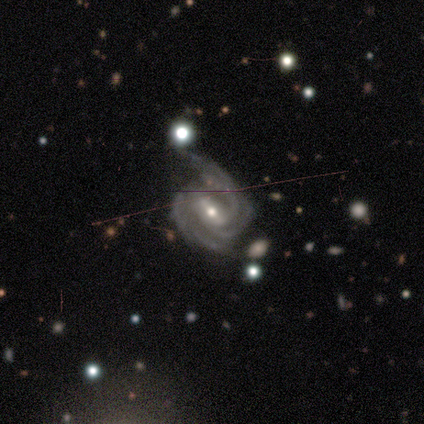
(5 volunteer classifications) A featured or disk galaxy (100%) with a weak bar (60%), 2 (80%) medium (80%) spiral arms (100%) and a small central bulge (80%).

Vote fractions:
- Smooth or featured? featured or disk: 100% / smooth: 0% / star or artifact: 0%
- Edge-on disk? no: 100% / yes: 0%
- Bar? weak: 60% / strong: 20% / no: 20%
- Spiral arms? yes: 100% / no: 0%
- Spiral winding? medium: 80% / tight: 20% / loose: 0%
- Spiral arm count? 2: 80% / 3: 20% / 1: 0% / 4: 0% / more than 4: 0% / can't tell: 0%
- Bulge size? small: 80% / moderate: 20% / dominant: 0% / large: 0% / none: 0%
- Merging? none: 80% / major disturbance: 20% / minor disturbance: 0% / merger: 0%